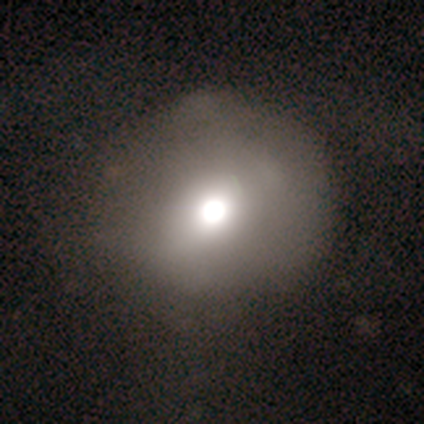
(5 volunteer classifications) Smooth or featured? smooth (60%)
How rounded? round (67%)
Merging? none (80%)